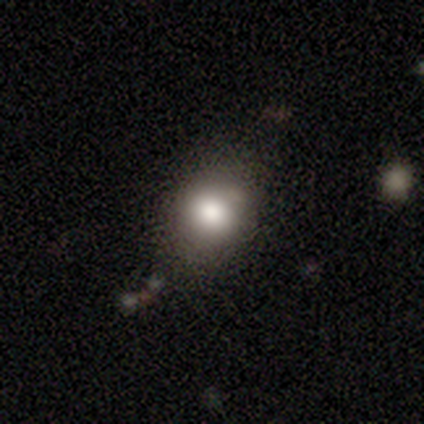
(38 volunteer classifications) smooth-or-featured: smooth: 76% | featured or disk: 13% | star or artifact: 11%
  how-rounded: round: 72% | in between: 28% | cigar-shaped: 0%
  merging: none: 53% | minor disturbance: 15% | merger: 15% | major disturbance: 3%